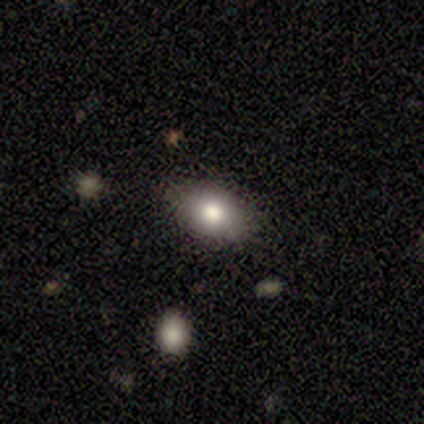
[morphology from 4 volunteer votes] Volunteers were most divided on "how rounded": in between: 75%, round: 25%, cigar-shaped: 0%. More confident: smooth or featured — smooth (100%); merging — none (100%).